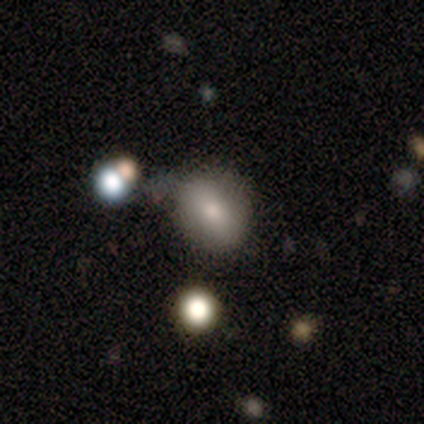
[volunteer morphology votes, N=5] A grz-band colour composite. It shows a smooth galaxy with no disk features (60%) that is round (33%, tied with in between and cigar-shaped). Merging: minor disturbance (80%).